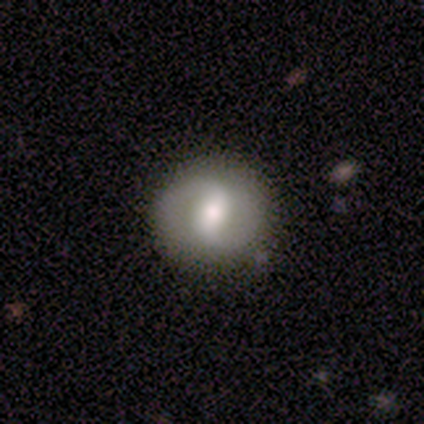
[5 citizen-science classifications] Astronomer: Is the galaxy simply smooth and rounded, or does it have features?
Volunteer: featured or disk — 80%.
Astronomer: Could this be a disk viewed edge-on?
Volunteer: no — 100%.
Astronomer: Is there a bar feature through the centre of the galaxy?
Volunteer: weak — 100%.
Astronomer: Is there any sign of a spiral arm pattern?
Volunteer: yes — 100%.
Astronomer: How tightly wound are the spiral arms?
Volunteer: medium — 75%.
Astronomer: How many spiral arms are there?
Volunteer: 2 — 100%.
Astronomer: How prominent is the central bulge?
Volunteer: moderate — 75%.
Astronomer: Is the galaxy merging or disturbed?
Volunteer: none — 100%.